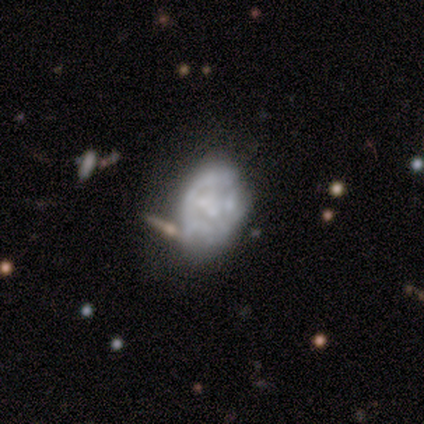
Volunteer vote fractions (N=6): smooth_or_featured: featured or disk (p=0.83) [alt: star or artifact p=0.17]
disk_edge_on: no (p=1.00)
bar: no (p=1.00)
has_spiral_arms: no (p=1.00)
bulge_size: moderate (p=0.40) [tied with: small p=0.40]
merging: none (p=0.60) [alt: major disturbance p=0.20]